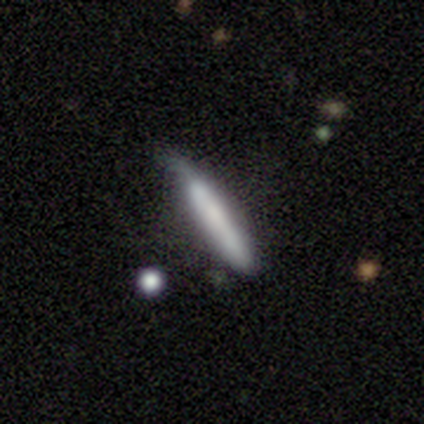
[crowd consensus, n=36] Smooth or featured: smooth — 81% (featured or disk — 19%)
How rounded: cigar-shaped — 93% (round — 3%)
Merging: none — 56% (minor disturbance — 33%)